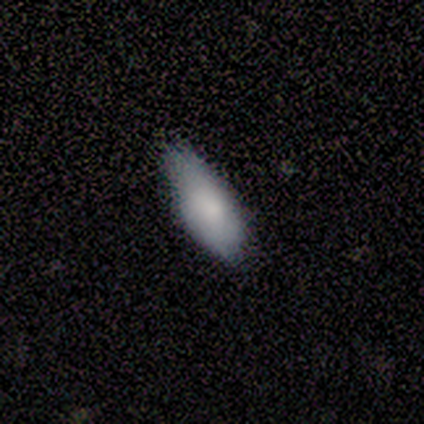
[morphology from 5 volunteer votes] Smooth or featured?
  - smooth: 80% *
  - featured or disk: 20%
  - star or artifact: 0%
How rounded?
  - in between: 75% *
  - cigar-shaped: 25%
  - round: 0%
Merging?
  - none: 60% *
  - minor disturbance: 40%
  - major disturbance: 0%
  - merger: 0%